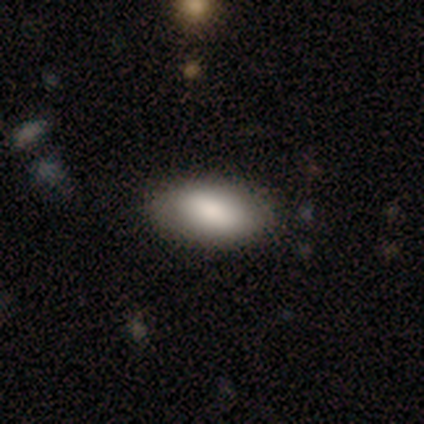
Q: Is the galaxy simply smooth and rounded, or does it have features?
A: smooth — 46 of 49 (94%).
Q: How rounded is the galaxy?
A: in between — 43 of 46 (93%).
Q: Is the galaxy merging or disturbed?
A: none — 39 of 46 (85%).